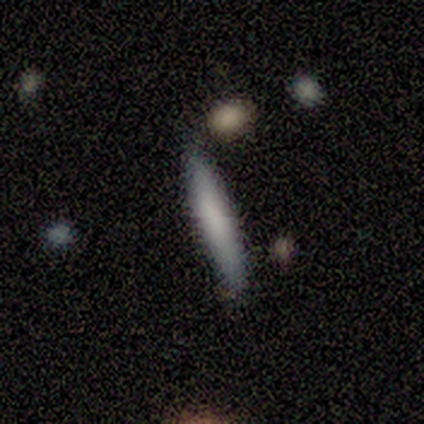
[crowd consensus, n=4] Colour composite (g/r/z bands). It shows a smooth galaxy with no disk features (100%) that is cigar-shaped (100%). Merging: none (100%).